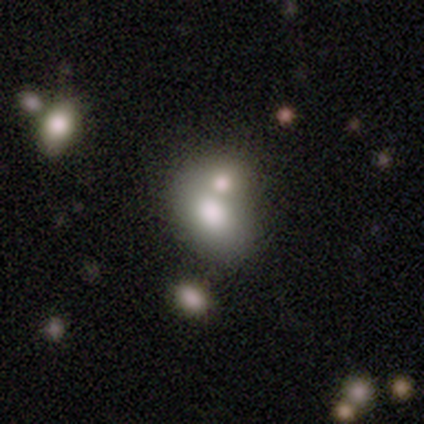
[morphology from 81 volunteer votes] This is likely a smooth galaxy (78%). How rounded: clearly in between (86%). Merging: likely merger (61%).